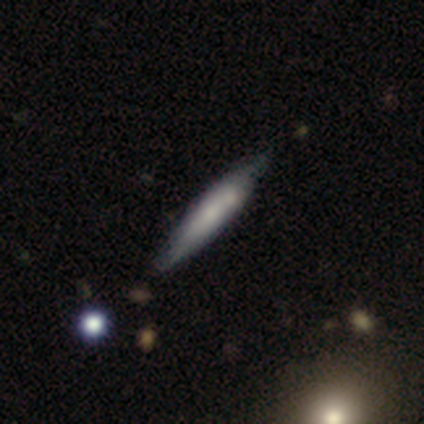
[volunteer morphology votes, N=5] Overall: smooth (60%; featured or disk 40%). How rounded: cigar-shaped (100%). Merging: none (40%, tied with minor disturbance).